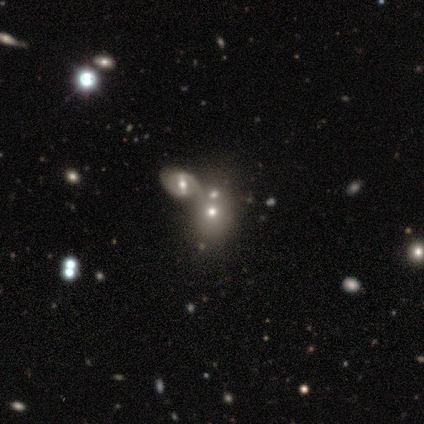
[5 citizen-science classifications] Volunteers were most divided on "smooth or featured" (2-way tie): smooth: 40%, star or artifact: 40%, featured or disk: 20%; "merging" (3-way tie): none: 33%, minor disturbance: 33%, merger: 33%, major disturbance: 0%. More confident: how rounded — round (100%).